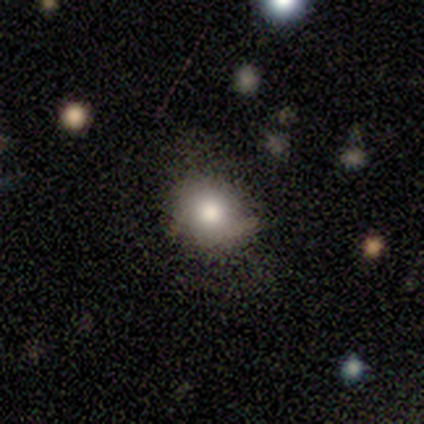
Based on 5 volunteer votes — smooth_or_featured: smooth (p=1.00)
how_rounded: round (p=0.60) [alt: in between p=0.40]
merging: none (p=0.40) [tied with: minor disturbance p=0.40]